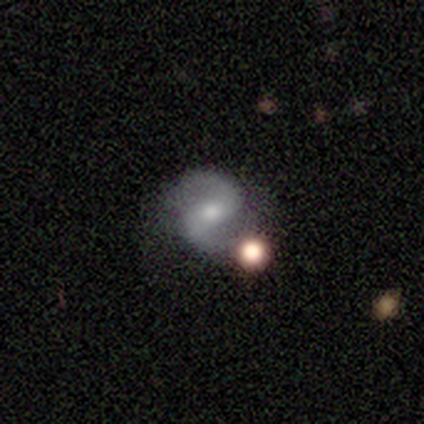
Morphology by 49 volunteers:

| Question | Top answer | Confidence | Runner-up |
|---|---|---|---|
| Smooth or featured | featured or disk | 88% | star or artifact (10%) |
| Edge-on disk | no | 100% | — |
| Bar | strong | 40% | weak (33%) |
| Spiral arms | yes | 100% | — |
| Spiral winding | medium | 58% | loose (30%) |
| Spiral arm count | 2 | 98% | 1 (2%) |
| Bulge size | moderate | 56% | small (23%) |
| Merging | none | 73% | minor disturbance (14%) |